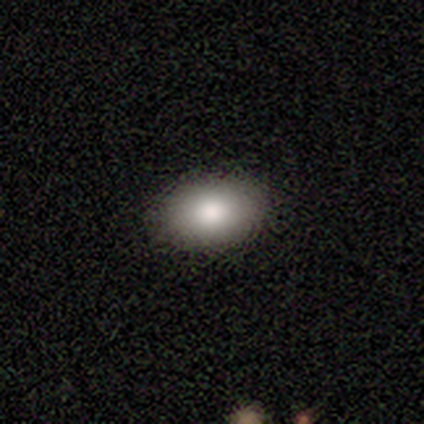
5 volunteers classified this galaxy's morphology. Smooth or featured? 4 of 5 (80%) said smooth. How rounded? 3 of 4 (75%) said in between. Merging? 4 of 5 (80%) said none.